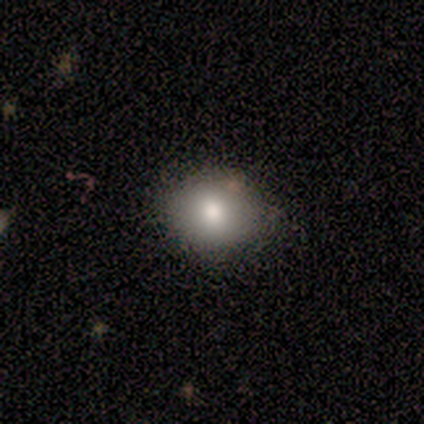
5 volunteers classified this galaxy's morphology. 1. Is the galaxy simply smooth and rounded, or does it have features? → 40% smooth (tied), 40% featured or disk (tied), 20% star or artifact.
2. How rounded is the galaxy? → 100% round, 0% in between, 0% cigar-shaped.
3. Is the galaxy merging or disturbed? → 100% none, 0% minor disturbance, 0% major disturbance, 0% merger.